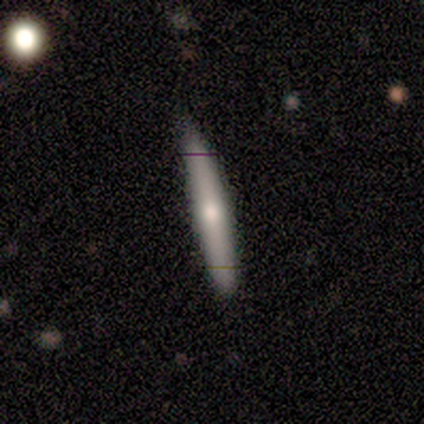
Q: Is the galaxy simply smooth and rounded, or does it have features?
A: smooth — 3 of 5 (60%).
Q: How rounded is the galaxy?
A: cigar-shaped — 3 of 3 (100%).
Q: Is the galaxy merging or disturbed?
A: none — 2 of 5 (40%, tied with minor disturbance).